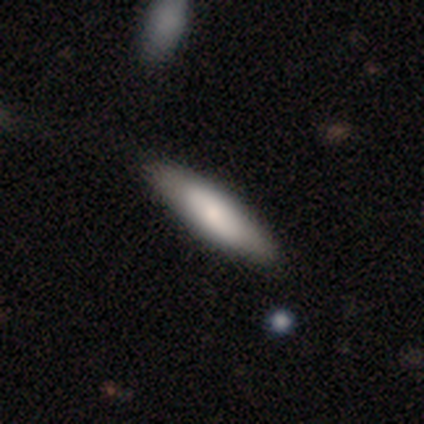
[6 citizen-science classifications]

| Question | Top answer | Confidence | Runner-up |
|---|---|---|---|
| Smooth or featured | smooth | 67% | featured or disk (33%) |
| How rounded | cigar-shaped | 50% | round (25%) |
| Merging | none | 67% | minor disturbance (33%) |